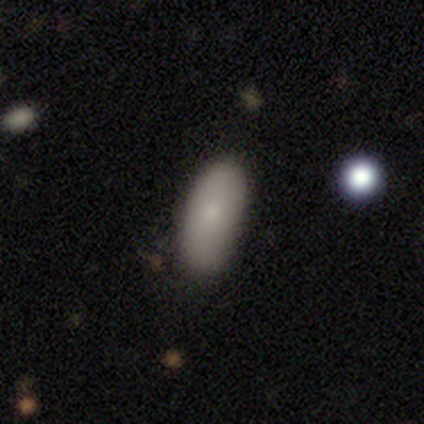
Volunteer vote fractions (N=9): smooth_or_featured: smooth (p=0.78) [alt: featured or disk p=0.22]
how_rounded: in between (p=0.57) [alt: cigar-shaped p=0.43]
merging: none (p=0.67) [alt: minor disturbance p=0.33]